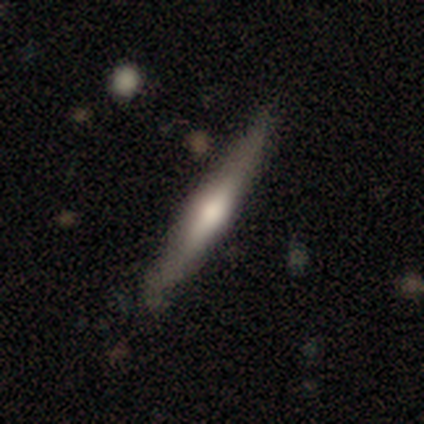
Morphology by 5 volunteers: smooth_or_featured: smooth (p=0.60) [alt: featured or disk p=0.40]
how_rounded: cigar-shaped (p=0.67) [alt: in between p=0.33]
merging: none (p=0.80) [alt: minor disturbance p=0.20]